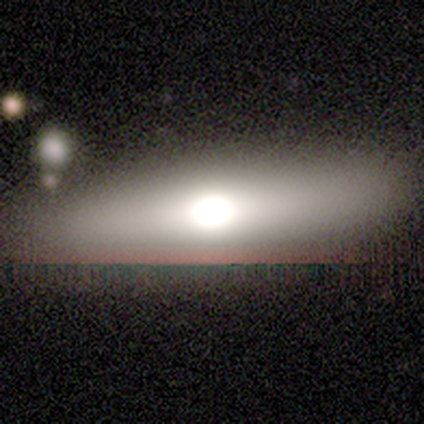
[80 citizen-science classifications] Q: Smooth or featured?
A: smooth (49%); runner-up: featured or disk (40%)
Q: How rounded?
A: in between (49%); runner-up: cigar-shaped (46%)
Q: Merging?
A: none (83%); runner-up: minor disturbance (10%)